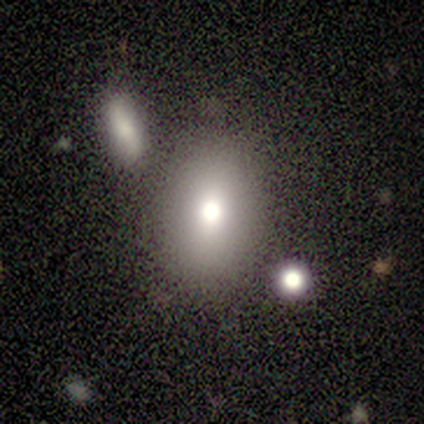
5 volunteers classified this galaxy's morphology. Smooth or featured? smooth (80%)
How rounded? in between (100%)
Merging? none (60%)